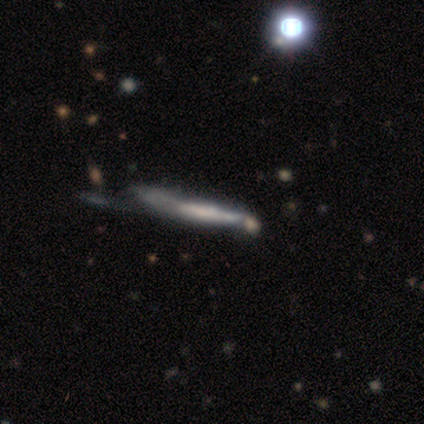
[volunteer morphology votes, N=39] A featured or disk galaxy (69%) viewed edge-on (74%) with no central bulge (55%).

Vote fractions:
- Smooth or featured? featured or disk: 69% / smooth: 26% / star or artifact: 5%
- Edge-on disk? yes: 74% / no: 26%
- Edge-on bulge? none: 55% / rounded: 25% / boxy: 20%
- Merging? minor disturbance: 22% (tied) / major disturbance: 22% (tied) / none: 19% / merger: 14%